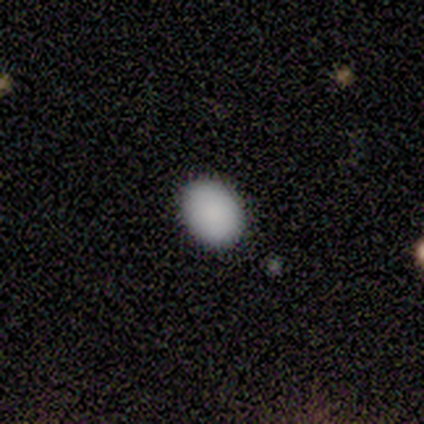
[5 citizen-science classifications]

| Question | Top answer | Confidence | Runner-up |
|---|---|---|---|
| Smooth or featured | smooth | 100% | — |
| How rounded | in between | 60% | round (40%) |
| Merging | none | 100% | — |